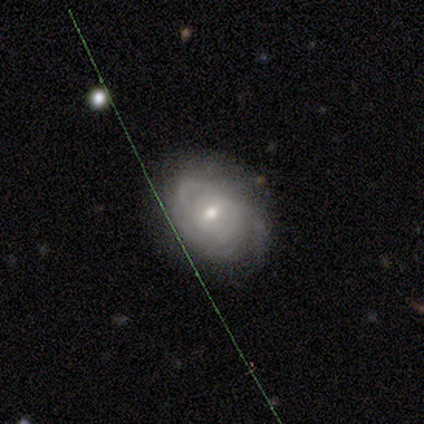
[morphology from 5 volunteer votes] smooth-or-featured: smooth: 40% (tied) | featured or disk: 40% (tied) | star or artifact: 20%
  how-rounded: round: 50% (tied) | in between: 50% (tied) | cigar-shaped: 0%
  merging: minor disturbance: 50% | none: 25% | major disturbance: 25% | merger: 0%